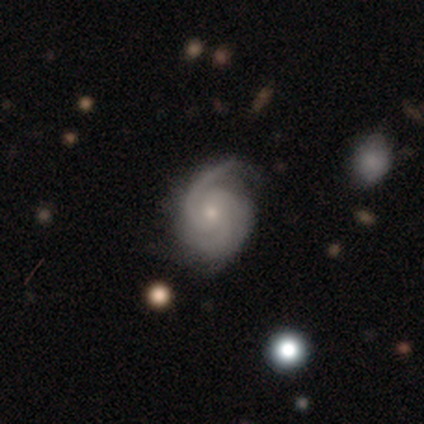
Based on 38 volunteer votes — Overall: featured or disk (95%). Edge-on disk: no (100%). Bar: no (78%). Spiral arms: yes (97%). Spiral arm count: 3 (54%; 2 29%). Spiral winding: tight (49%; medium 46%). Bulge size: small (67%; moderate 33%). Merging: none (61%; minor disturbance 37%).